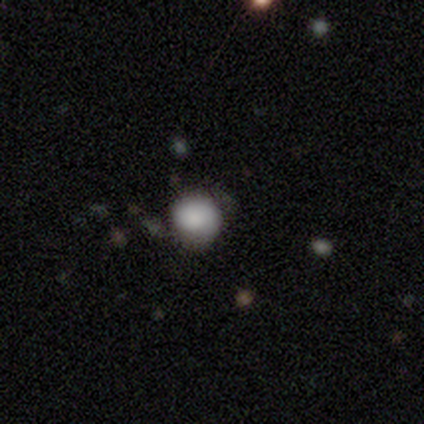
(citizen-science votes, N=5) Q: Smooth or featured?
A: smooth (60%); runner-up: featured or disk (20%)
Q: How rounded?
A: round (100%)
Q: Merging?
A: none (50%); runner-up: minor disturbance (25%)